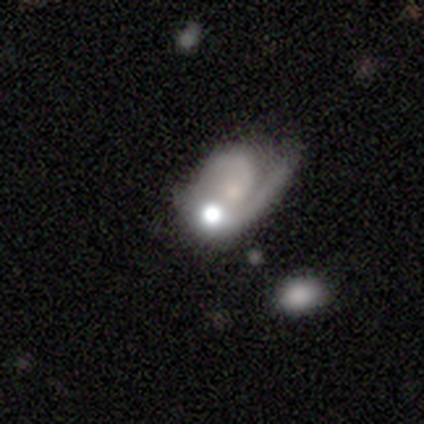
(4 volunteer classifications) A featured or disk galaxy (100%) with a weak bar (50%, tied with no), 1 (50%, tied with 2) medium (50%, tied with loose) spiral arms (100%) and a small central bulge (75%).

Vote fractions:
- Smooth or featured? featured or disk: 100% / smooth: 0% / star or artifact: 0%
- Edge-on disk? no: 100% / yes: 0%
- Bar? weak: 50% (tied) / no: 50% (tied) / strong: 0%
- Spiral arms? yes: 100% / no: 0%
- Spiral winding? medium: 50% (tied) / loose: 50% (tied) / tight: 0%
- Spiral arm count? 1: 50% (tied) / 2: 50% (tied) / 3: 0% / 4: 0% / more than 4: 0% / can't tell: 0%
- Bulge size? small: 75% / none: 25% / dominant: 0% / large: 0% / moderate: 0%
- Merging? none: 75% / merger: 25% / minor disturbance: 0% / major disturbance: 0%